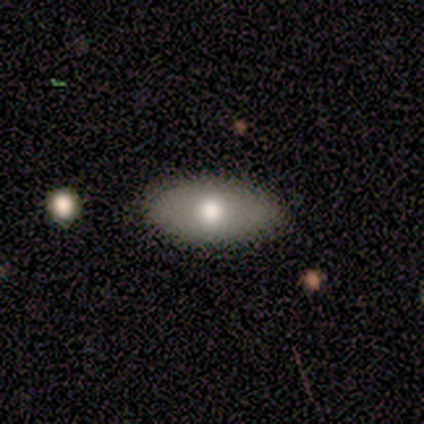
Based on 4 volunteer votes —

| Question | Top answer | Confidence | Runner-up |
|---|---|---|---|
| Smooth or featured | smooth | 100% | — |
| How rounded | in between | 100% | — |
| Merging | none | 100% | — |